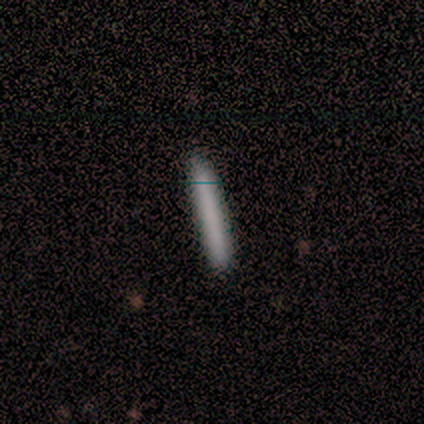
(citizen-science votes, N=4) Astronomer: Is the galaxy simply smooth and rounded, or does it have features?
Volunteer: smooth — 75%.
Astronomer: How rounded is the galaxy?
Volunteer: cigar-shaped — 100%.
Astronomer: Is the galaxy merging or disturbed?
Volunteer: none — 100%.